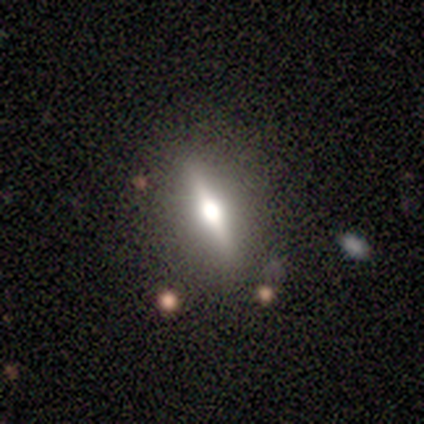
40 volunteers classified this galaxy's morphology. A featured or disk galaxy (65%) viewed edge-on (92%) with a rounded central bulge (88%). Merging: none (85%).